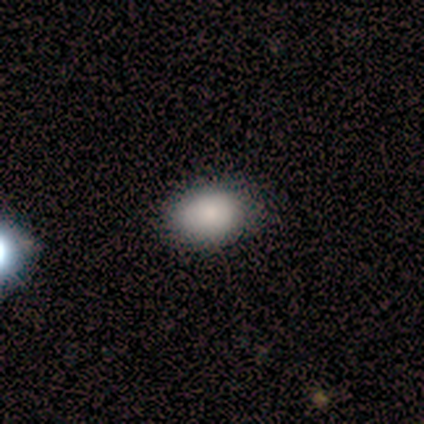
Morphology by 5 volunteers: Smooth or featured? smooth (40%, tied with star or artifact)
How rounded? in between (100%)
Merging? none (100%)